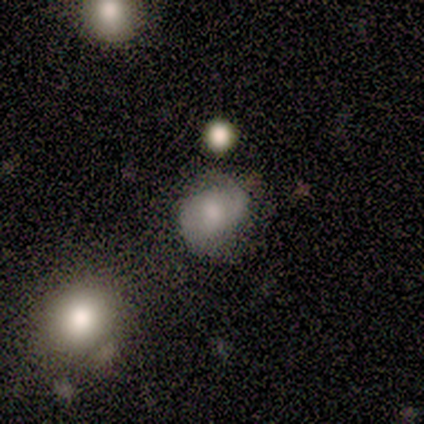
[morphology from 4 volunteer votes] Volunteers were most divided on "bar": no: 67%, weak: 33%, strong: 0%. More confident: edge-on disk — no (100%); spiral arms — yes (100%); spiral arm count — 2 (100%); smooth or featured — featured or disk (75%); merging — none (75%); spiral winding — medium (67%); bulge size — large (67%).